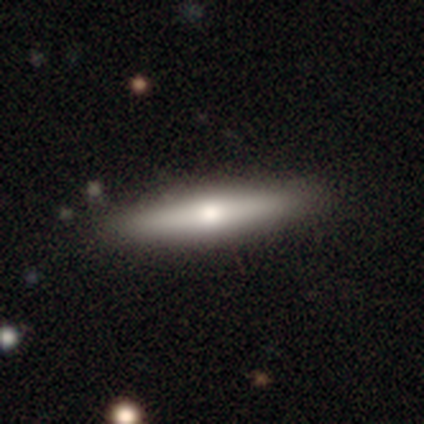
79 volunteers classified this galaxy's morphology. Overall: smooth (63%; featured or disk 37%). How rounded: cigar-shaped (92%). Merging: none (46%).